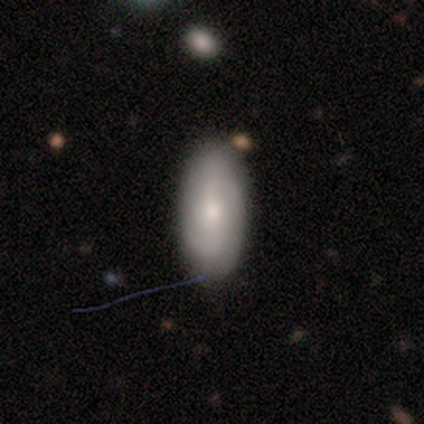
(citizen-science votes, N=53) Smooth or featured? featured or disk (49%)
Edge-on disk? no (92%)
Bar? no (67%)
Spiral arms? yes (75%)
Spiral winding? tight (44%)
Spiral arm count? 2 (78%)
Bulge size? moderate (58%)
Merging? none (74%)